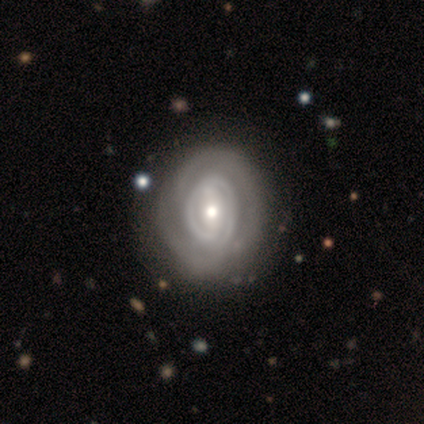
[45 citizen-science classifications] This is clearly a featured or disk galaxy (84%). It is clearly not viewed edge-on (100%). Bar: possibly strong (47%). Spiral arm pattern: likely yes (76%). Spiral arm count: marginally 2 (45%). Spiral winding: likely tight (69%). Central bulge: likely moderate (76%). Merging: likely none (77%).